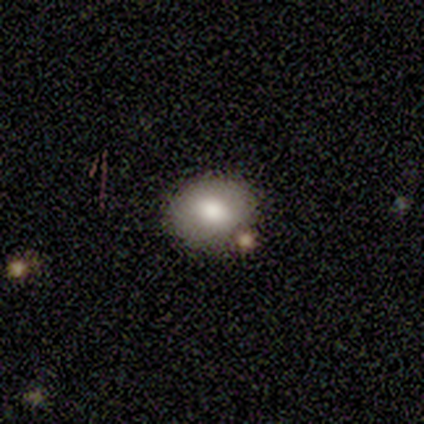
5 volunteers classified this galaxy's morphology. smooth_or_featured: smooth (p=1.00)
how_rounded: in between (p=0.60) [alt: round p=0.40]
merging: none (p=0.80) [alt: merger p=0.20]